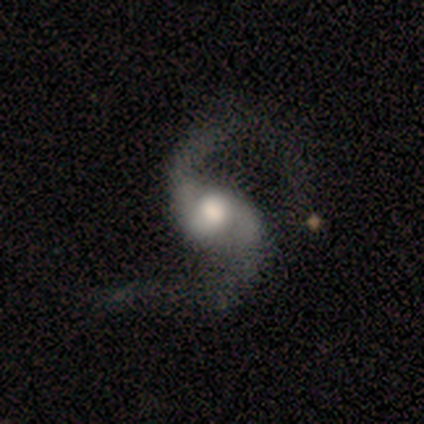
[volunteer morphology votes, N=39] Volunteers were most divided on "bar": no: 45%, weak: 30%, strong: 24%. Remaining: spiral arm count — 2 (100%); spiral arms — yes (97%); edge-on disk — no (94%); smooth or featured — featured or disk (90%); spiral winding — loose (75%); bulge size — moderate (52%); merging — none (36%).